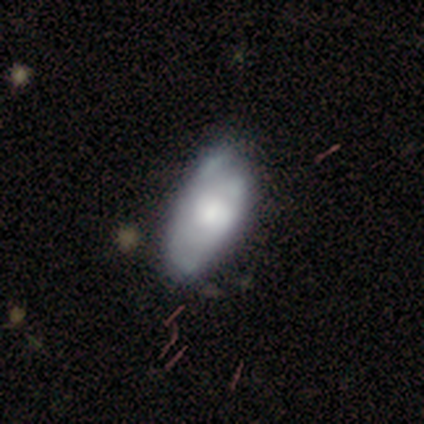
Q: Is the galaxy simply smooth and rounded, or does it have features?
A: smooth — 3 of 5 (60%).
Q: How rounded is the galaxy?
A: in between — 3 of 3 (100%).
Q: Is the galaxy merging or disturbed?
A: minor disturbance — 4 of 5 (80%).